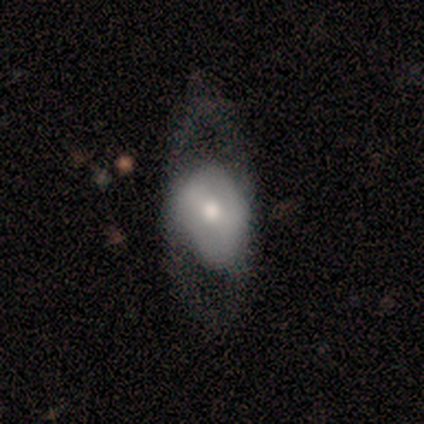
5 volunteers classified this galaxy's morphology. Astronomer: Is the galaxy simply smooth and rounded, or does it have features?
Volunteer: smooth — 80%.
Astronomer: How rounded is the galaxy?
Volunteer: in between — 100%.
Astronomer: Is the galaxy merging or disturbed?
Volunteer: major disturbance — 60% (runner-up: none, 40%).